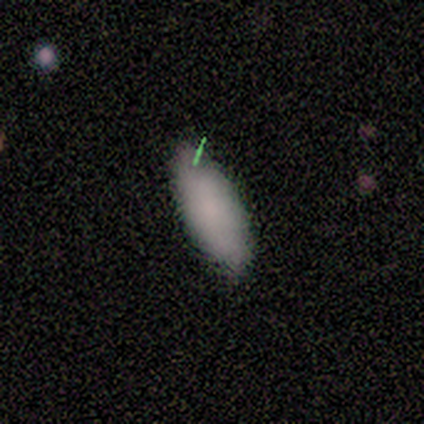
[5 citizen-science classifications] Smooth or featured?
  - smooth: 80% *
  - featured or disk: 20%
  - star or artifact: 0%
How rounded?
  - in between: 100% *
  - round: 0%
  - cigar-shaped: 0%
Merging?
  - none: 100% *
  - minor disturbance: 0%
  - major disturbance: 0%
  - merger: 0%